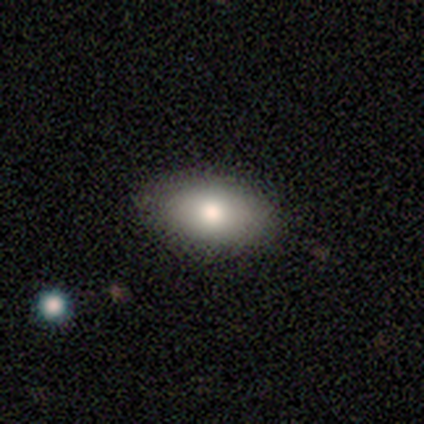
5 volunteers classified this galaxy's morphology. This appears to be a smooth galaxy with no disk features (80%) that is in between round and cigar-shaped (75%). Merging: none (80%).